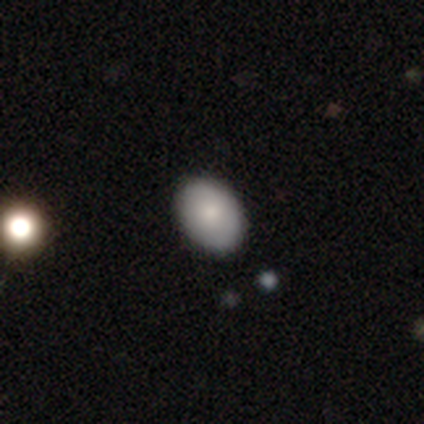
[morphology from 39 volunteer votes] type=smooth (90%); roundness=in between (80%); merging=none (86%).